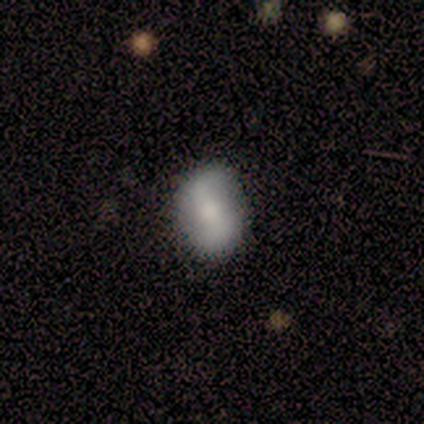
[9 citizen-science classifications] smooth_or_featured: smooth (p=0.78) [alt: featured or disk p=0.11]
how_rounded: in between (p=0.57) [alt: round p=0.43]
merging: none (p=0.88) [alt: minor disturbance p=0.12]